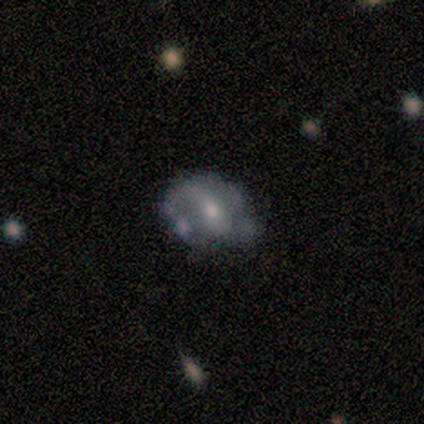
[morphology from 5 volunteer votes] type=featured or disk (80%); edge-on=no (100%); bar=weak (50%, tied with no); spiral arms=yes (75%); winding=loose (100%); arm count=1 (33%, tied with 2 and can't tell); bulge=moderate (50%, tied with small); merging=minor disturbance (60%).